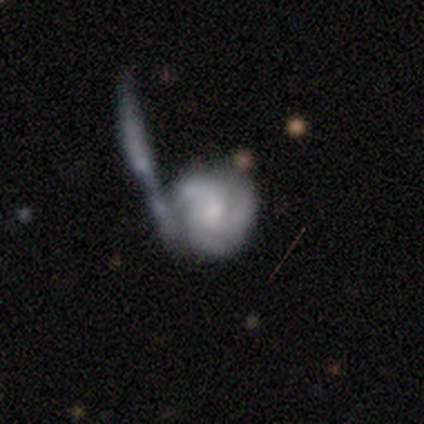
Volunteers were most divided on "merging": merger: 41%, major disturbance: 36%, none: 21%, minor disturbance: 3%. Remaining: edge-on disk — no (100%); spiral arms — yes (94%); smooth or featured — featured or disk (78%); bar — no (71%); spiral arm count — 3 (69%); spiral winding — tight (55%); bulge size — small (48%).